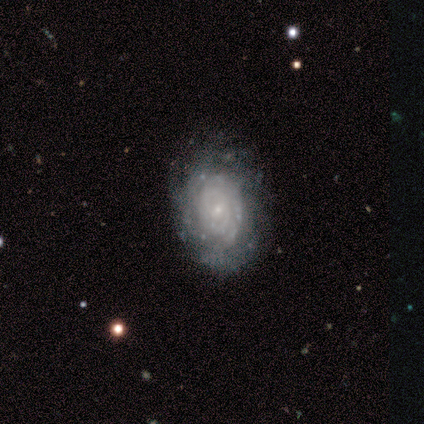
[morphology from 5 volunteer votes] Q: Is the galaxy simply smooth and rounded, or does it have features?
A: featured or disk — 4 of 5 (80%).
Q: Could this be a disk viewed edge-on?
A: no — 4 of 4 (100%).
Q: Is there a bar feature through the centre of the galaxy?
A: no — 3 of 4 (75%).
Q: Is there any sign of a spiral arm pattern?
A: yes — 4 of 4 (100%).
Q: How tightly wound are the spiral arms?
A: tight — 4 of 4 (100%).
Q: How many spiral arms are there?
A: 2 — 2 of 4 (50%).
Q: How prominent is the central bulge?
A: small — 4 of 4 (100%).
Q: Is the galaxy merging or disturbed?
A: none — 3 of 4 (75%).